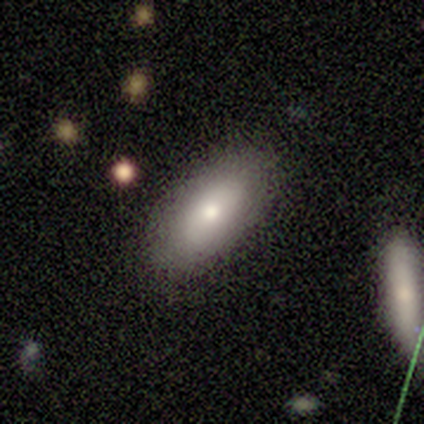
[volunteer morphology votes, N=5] This appears to be a smooth galaxy with no disk features (40%, tied with star or artifact) that is in between round and cigar-shaped (100%). Merging: none (67%).